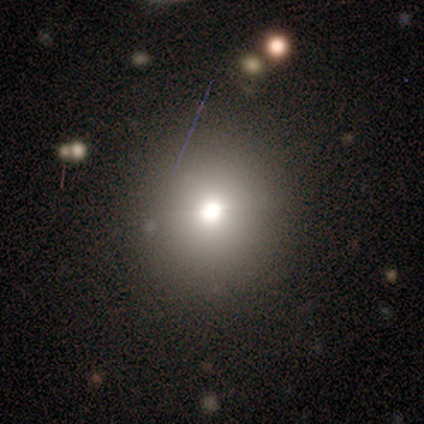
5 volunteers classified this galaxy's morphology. smooth 60%, star or artifact 40%, featured or disk 0%. Down the decision tree: how rounded — round (100%); merging — none (100%).